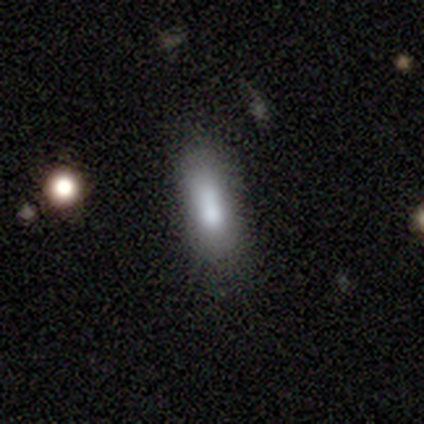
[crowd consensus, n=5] Overall: smooth (100%). How rounded: cigar-shaped (60%; in between 40%). Merging: none (80%).